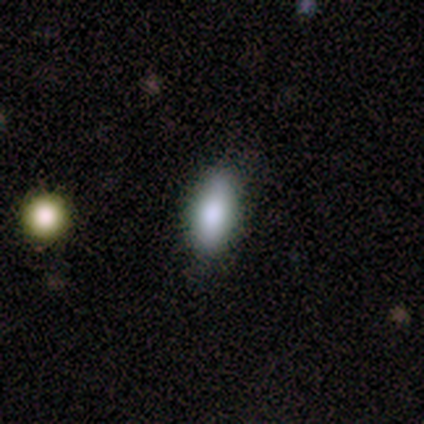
Q: Smooth or featured?
A: smooth (50%); runner-up: featured or disk (25%)
Q: How rounded?
A: in between (50%); tied with: cigar-shaped (50%)
Q: Merging?
A: none (100%)